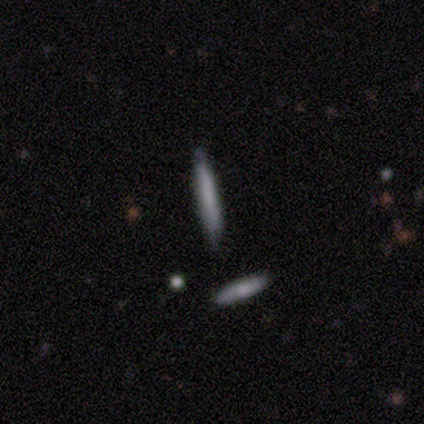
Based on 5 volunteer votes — A smooth galaxy with no disk features (80%) that is cigar-shaped (100%).

Vote fractions:
- Smooth or featured? smooth: 80% / featured or disk: 20% / star or artifact: 0%
- How rounded? cigar-shaped: 100% / round: 0% / in between: 0%
- Merging? none: 100% / minor disturbance: 0% / major disturbance: 0% / merger: 0%